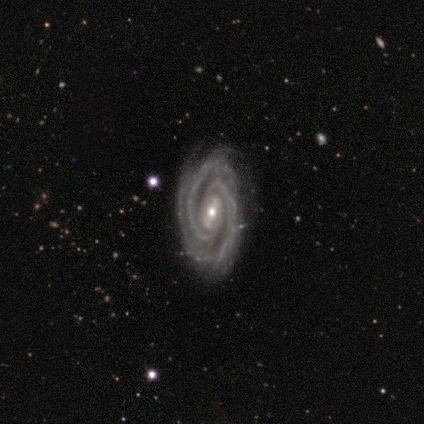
Smooth or featured: featured or disk — 100%
Edge-on disk: no — 100%
Bar: strong — 60% (weak — 20%)
Spiral arms: yes — 100%
Spiral winding: tight — 80% (loose — 20%)
Spiral arm count: 2 — 100%
Bulge size: small — 100%
Merging: none — 100%